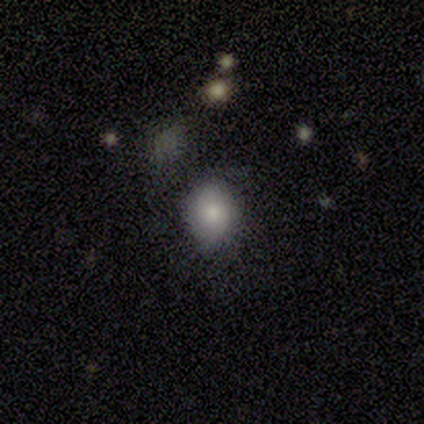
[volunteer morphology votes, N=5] type=smooth (60%); roundness=in between (67%); merging=none (50%).